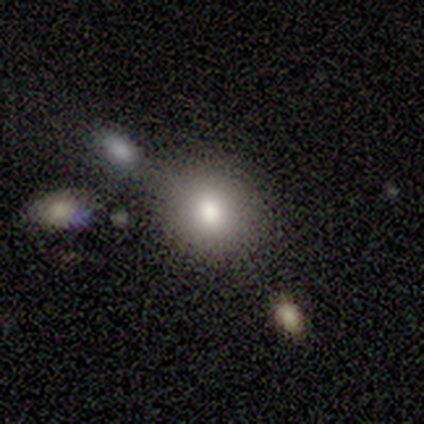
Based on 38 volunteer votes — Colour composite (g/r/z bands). It shows a smooth galaxy with no disk features (66%) that is round (72%). Merging: none (68%).